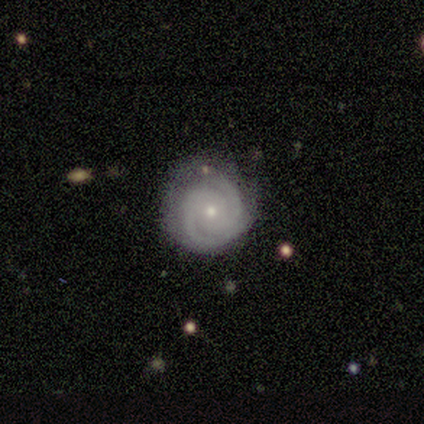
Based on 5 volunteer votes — A featured or disk galaxy (100%) with no bar (100%), 2 (80%) tight (80%) spiral arms (100%) and a small central bulge (80%).

Vote fractions:
- Smooth or featured? featured or disk: 100% / smooth: 0% / star or artifact: 0%
- Edge-on disk? no: 100% / yes: 0%
- Bar? no: 100% / strong: 0% / weak: 0%
- Spiral arms? yes: 100% / no: 0%
- Spiral winding? tight: 80% / medium: 20% / loose: 0%
- Spiral arm count? 2: 80% / 3: 20% / 1: 0% / 4: 0% / more than 4: 0% / can't tell: 0%
- Bulge size? small: 80% / moderate: 20% / dominant: 0% / large: 0% / none: 0%
- Merging? none: 100% / minor disturbance: 0% / major disturbance: 0% / merger: 0%